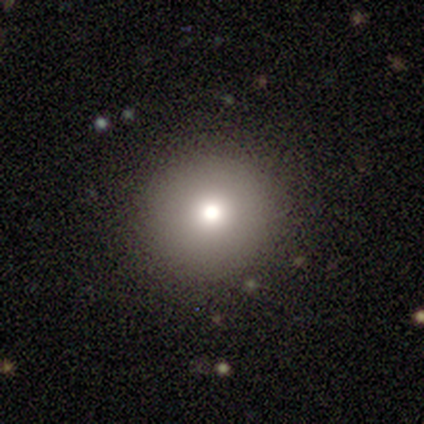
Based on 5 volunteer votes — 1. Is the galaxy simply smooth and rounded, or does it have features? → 80% smooth, 20% star or artifact, 0% featured or disk.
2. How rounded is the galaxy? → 100% round, 0% in between, 0% cigar-shaped.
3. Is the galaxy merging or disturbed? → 100% none, 0% minor disturbance, 0% major disturbance, 0% merger.